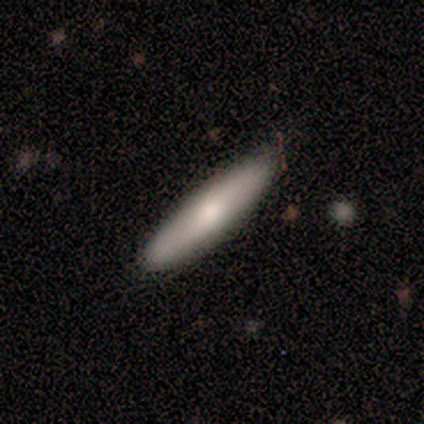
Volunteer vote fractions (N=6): A smooth galaxy with no disk features (83%) that is cigar-shaped (100%). Merging: none (100%).